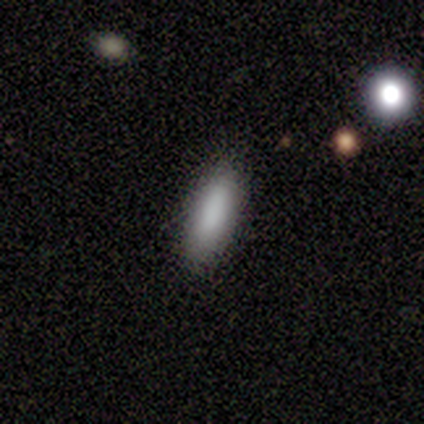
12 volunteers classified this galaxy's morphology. smooth-or-featured: smooth: 83% | featured or disk: 17% | star or artifact: 0%
  how-rounded: in between: 70% | cigar-shaped: 30% | round: 0%
  merging: none: 92% | minor disturbance: 8% | major disturbance: 0% | merger: 0%